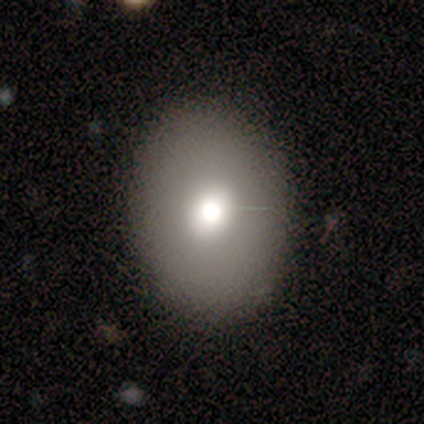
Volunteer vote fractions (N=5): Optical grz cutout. It shows a smooth galaxy with no disk features (80%) that is in between round and cigar-shaped (75%). Merging: none (100%).